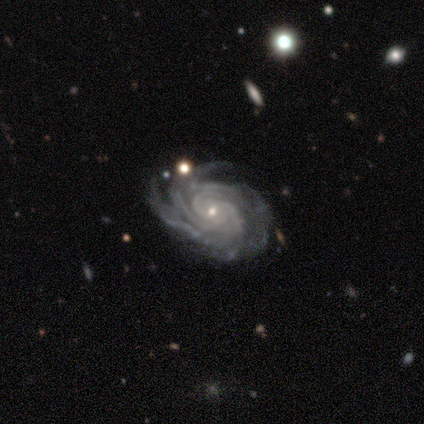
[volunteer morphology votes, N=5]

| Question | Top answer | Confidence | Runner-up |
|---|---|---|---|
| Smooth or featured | featured or disk | 100% | — |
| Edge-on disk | no | 100% | — |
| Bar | no | 80% | strong (20%) |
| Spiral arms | yes | 100% | — |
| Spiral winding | tight | 80% | medium (20%) |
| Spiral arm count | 3 | 40% | 2 (20%) |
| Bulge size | small | 80% | moderate (20%) |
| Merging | none | 60% | minor disturbance (40%) |